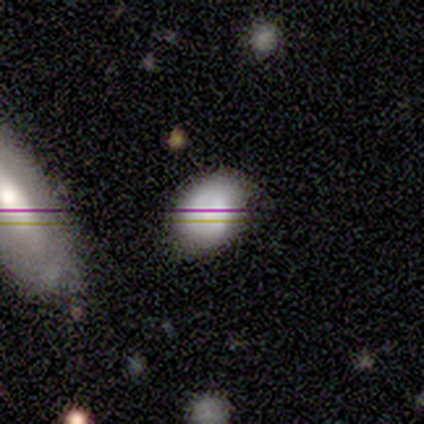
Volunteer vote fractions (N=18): Overall: smooth (56%; star or artifact 33%). How rounded: in between (60%; round 40%). Merging: none (67%).